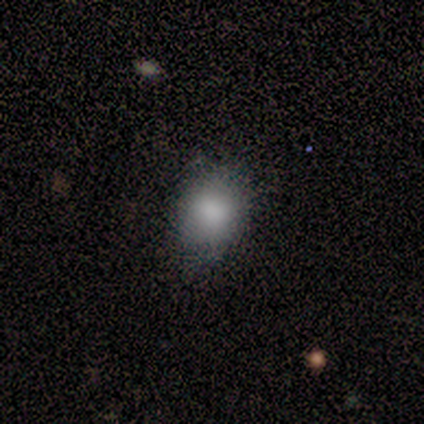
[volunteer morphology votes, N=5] Smooth or featured: smooth — 80% (featured or disk — 20%)
How rounded: round — 50% (tied with in between — 50%)
Merging: none — 100%